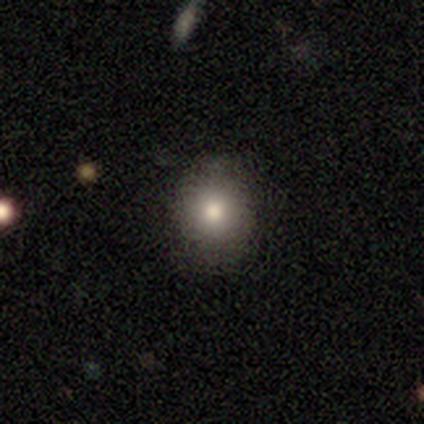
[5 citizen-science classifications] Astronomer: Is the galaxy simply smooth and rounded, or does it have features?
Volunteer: smooth — 60% (runner-up: star or artifact, 40%).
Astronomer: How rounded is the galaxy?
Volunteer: round — 100%.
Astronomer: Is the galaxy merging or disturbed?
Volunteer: none — 100%.